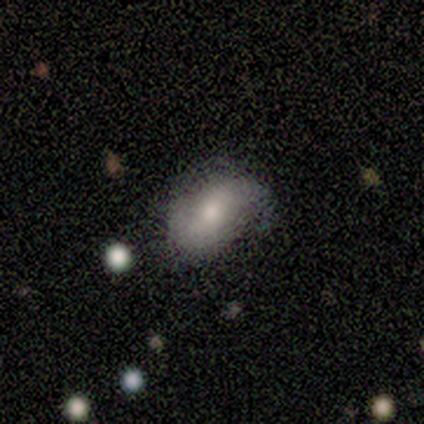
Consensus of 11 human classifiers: Smooth or featured? smooth (45%)
How rounded? in between (60%)
Merging? none (67%)